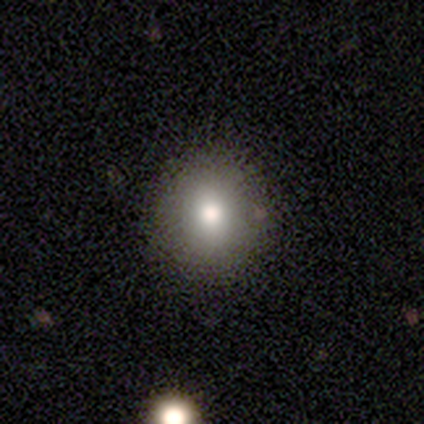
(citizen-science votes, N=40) smooth_or_featured: smooth (p=0.78) [alt: featured or disk p=0.15]
how_rounded: round (p=0.87) [alt: in between p=0.10]
merging: none (p=0.86) [alt: minor disturbance p=0.11]